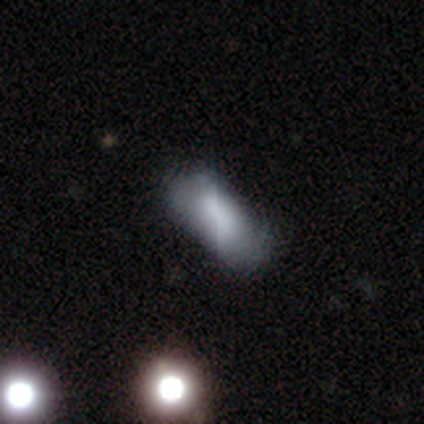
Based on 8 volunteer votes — Overall: smooth (88%). How rounded: in between (57%; cigar-shaped 29%). Merging: none (71%).